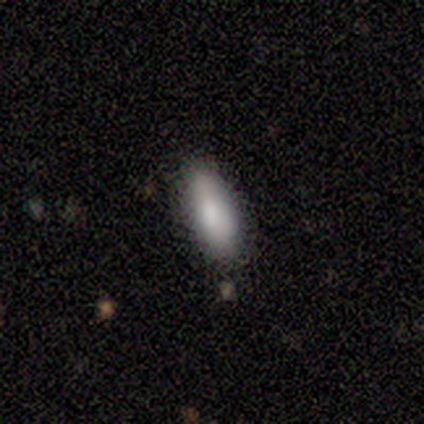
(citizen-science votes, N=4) Overall: smooth (100%). How rounded: in between (75%). Merging: none (100%).